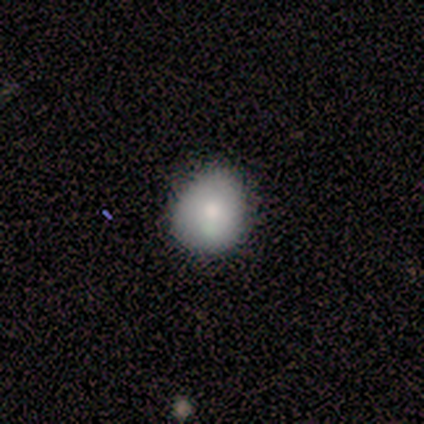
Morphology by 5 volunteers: Q: Smooth or featured?
A: smooth (100%)
Q: How rounded?
A: round (60%); runner-up: in between (40%)
Q: Merging?
A: none (80%); runner-up: minor disturbance (20%)